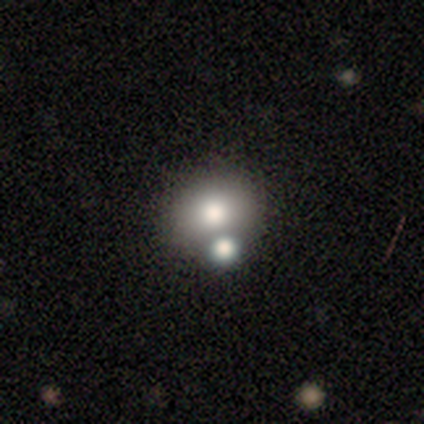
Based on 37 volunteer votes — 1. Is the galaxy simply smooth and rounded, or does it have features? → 84% smooth, 11% featured or disk, 5% star or artifact.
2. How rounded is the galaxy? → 81% round, 19% in between, 0% cigar-shaped.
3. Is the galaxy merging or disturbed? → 49% none, 37% merger, 9% major disturbance, 6% minor disturbance.